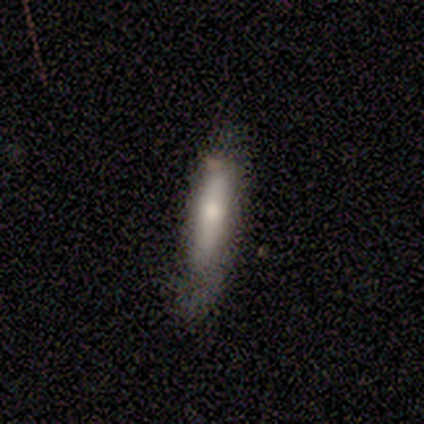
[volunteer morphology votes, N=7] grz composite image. It shows a smooth galaxy with no disk features (100%) that is cigar-shaped (100%). Merging: none (57%).